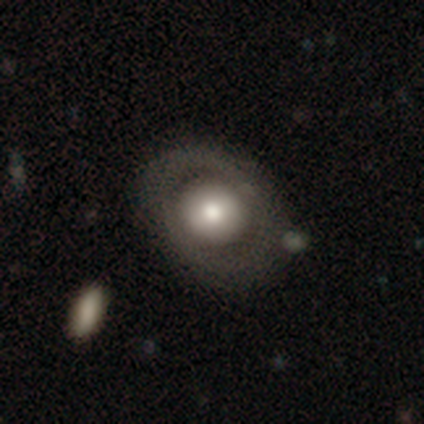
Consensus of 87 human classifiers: smooth-or-featured: smooth: 54% | featured or disk: 45% | star or artifact: 1%
  how-rounded: round: 70% | in between: 28% | cigar-shaped: 2%
  merging: none: 70% | minor disturbance: 20% | major disturbance: 9% | merger: 1%